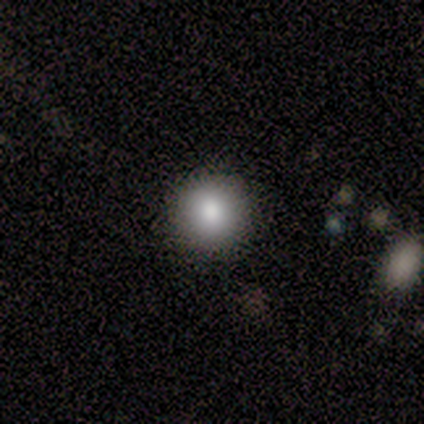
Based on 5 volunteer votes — Smooth or featured: smooth — 60% (star or artifact — 40%)
How rounded: round — 100%
Merging: none — 67% (minor disturbance — 33%)